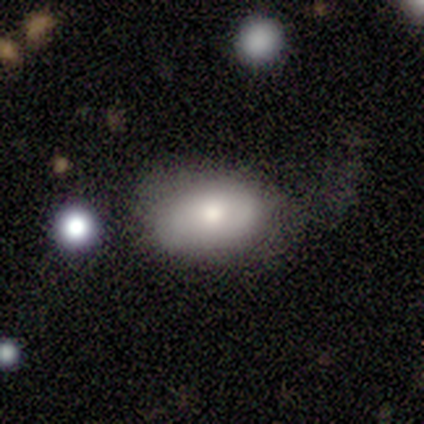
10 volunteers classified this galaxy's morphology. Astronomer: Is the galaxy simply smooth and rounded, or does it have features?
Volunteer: smooth — 90%.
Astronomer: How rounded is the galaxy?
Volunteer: in between — 100%.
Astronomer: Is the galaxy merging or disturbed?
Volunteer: major disturbance — 60%.